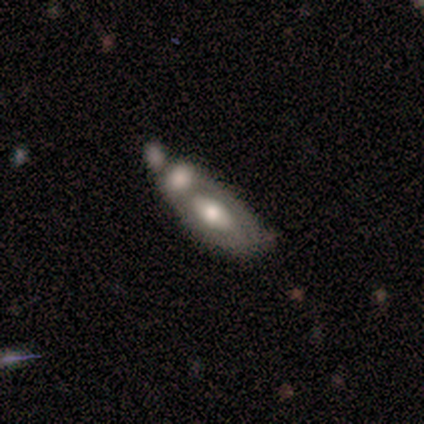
A featured or disk galaxy (71%) with no bar (100%), no spiral arms (100%) and a moderate central bulge (100%). Merging: merger (86%).